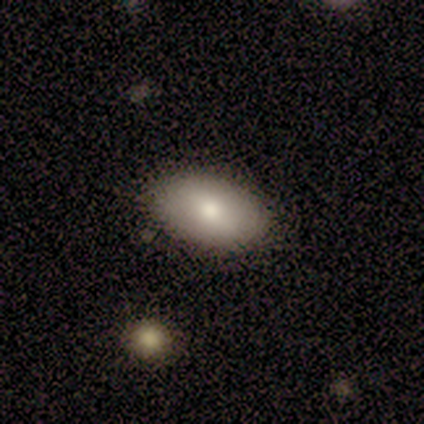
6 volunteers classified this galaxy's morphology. smooth-or-featured: smooth: 83% | featured or disk: 17% | star or artifact: 0%
  how-rounded: in between: 100% | round: 0% | cigar-shaped: 0%
  merging: none: 83% | minor disturbance: 17% | major disturbance: 0% | merger: 0%